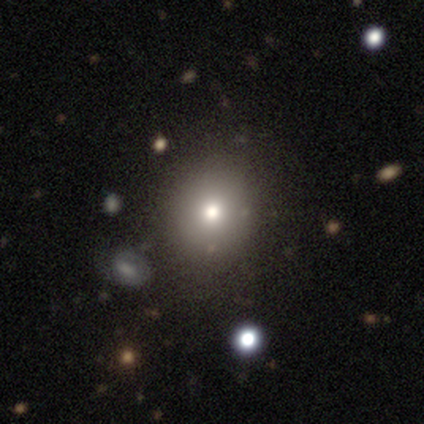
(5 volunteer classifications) This appears to be a smooth galaxy with no disk features (60%) that is round (67%). Merging: none (75%).